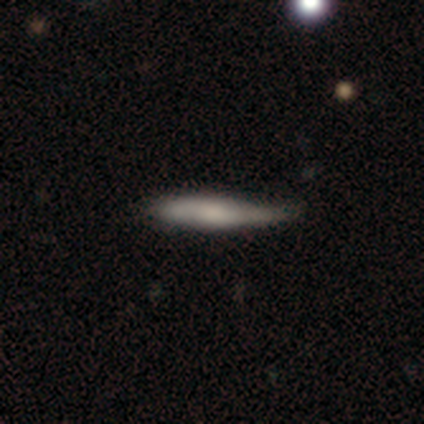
smooth 100%, featured or disk 0%, star or artifact 0%. Down the decision tree: how rounded — cigar-shaped (100%); merging — minor disturbance (60%).